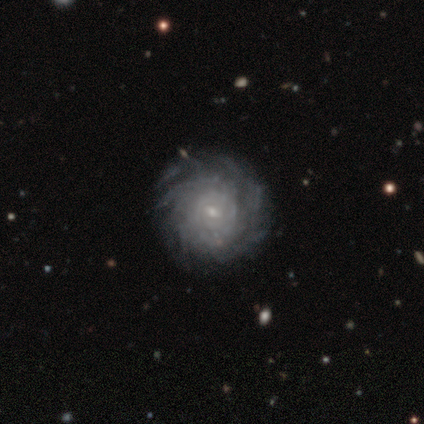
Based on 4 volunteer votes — This appears to be a featured or disk galaxy (100%) with a weak bar (50%, tied with no), more than 4 (100%) tight (75%) spiral arms (100%) and a small central bulge (75%). Merging: none (100%).